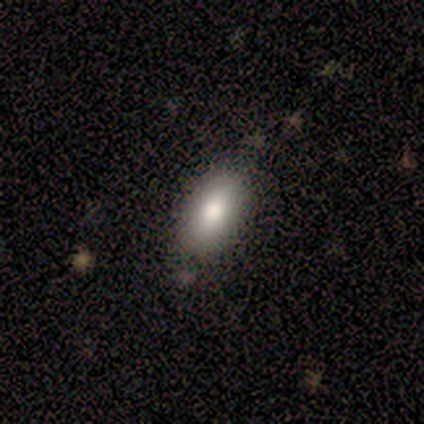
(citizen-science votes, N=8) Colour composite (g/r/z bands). It shows a smooth galaxy with no disk features (88%) that is in between round and cigar-shaped (100%). Merging: none (75%).